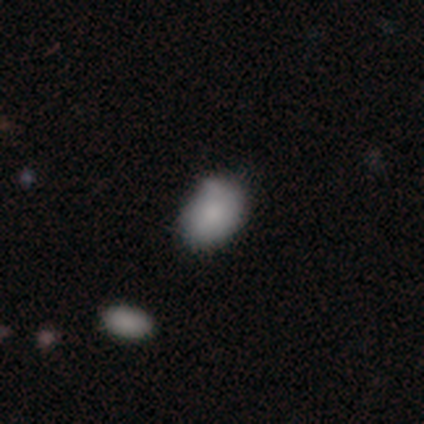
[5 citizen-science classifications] Smooth or featured? smooth (80%)
How rounded? in between (100%)
Merging? none (75%)